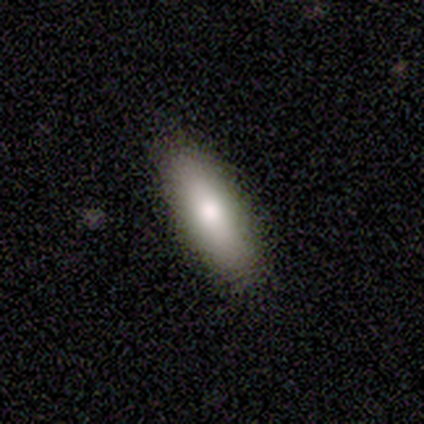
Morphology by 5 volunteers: smooth 100%, featured or disk 0%, star or artifact 0%. Down the decision tree: how rounded — in between (80%); merging — none (100%).